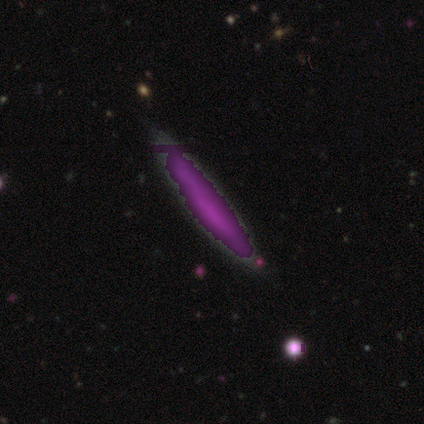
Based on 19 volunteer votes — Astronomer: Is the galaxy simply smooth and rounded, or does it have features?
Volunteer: star or artifact — 58%.